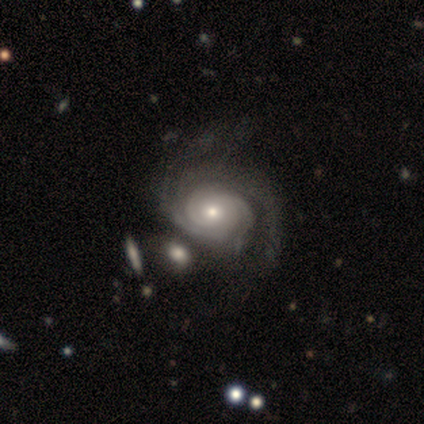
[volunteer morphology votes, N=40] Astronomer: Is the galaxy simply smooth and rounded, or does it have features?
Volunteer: featured or disk — 92%.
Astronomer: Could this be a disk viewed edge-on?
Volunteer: no — 100%.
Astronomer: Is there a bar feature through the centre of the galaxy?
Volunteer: no — 86%.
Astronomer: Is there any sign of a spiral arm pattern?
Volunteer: yes — 100%.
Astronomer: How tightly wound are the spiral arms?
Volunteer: tight — 76%.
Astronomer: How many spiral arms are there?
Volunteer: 2 — 46% (runner-up: 3, 27%).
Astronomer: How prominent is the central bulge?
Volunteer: moderate — 62%.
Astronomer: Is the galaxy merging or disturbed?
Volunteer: none — 34% (runner-up: merger, 24%).